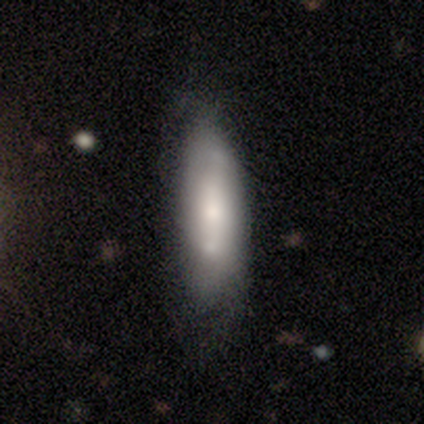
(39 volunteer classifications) smooth_or_featured: smooth (p=0.49) [alt: featured or disk p=0.46]
how_rounded: cigar-shaped (p=0.53) [alt: in between p=0.47]
merging: none (p=0.59) [alt: minor disturbance p=0.24]